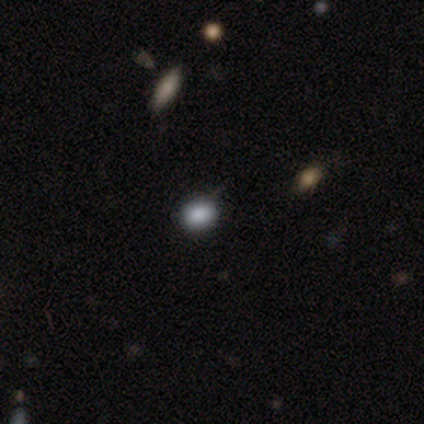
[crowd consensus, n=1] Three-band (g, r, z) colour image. It shows a smooth galaxy with no disk features (100%) that is in between round and cigar-shaped (100%). Merging: none (100%).